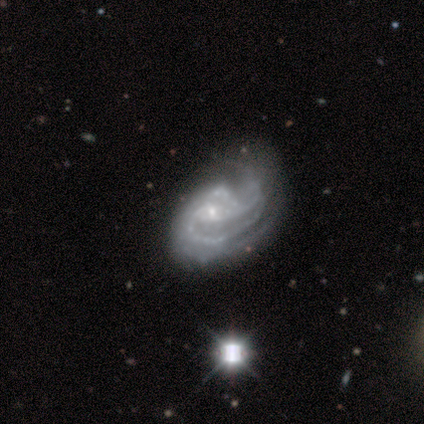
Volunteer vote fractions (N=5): smooth_or_featured: featured or disk (p=1.00)
disk_edge_on: no (p=1.00)
bar: no (p=0.60) [alt: strong p=0.20]
has_spiral_arms: yes (p=1.00)
spiral_winding: medium (p=0.60) [alt: tight p=0.40]
spiral_arm_count: 2 (p=1.00)
bulge_size: small (p=1.00)
merging: minor disturbance (p=0.40) [tied with: major disturbance p=0.40]